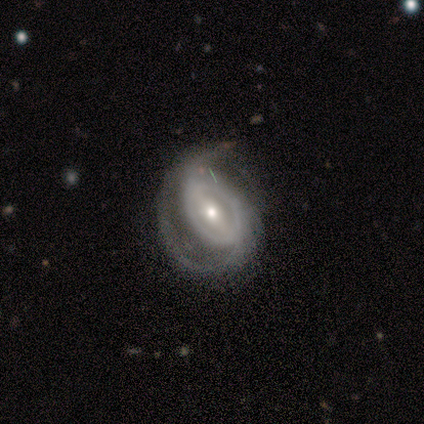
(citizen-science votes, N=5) Smooth or featured: featured or disk — 100%
Edge-on disk: no — 100%
Bar: strong — 40% (tied with weak — 40%)
Spiral arms: yes — 80% (no — 20%)
Spiral winding: loose — 50% (tight — 25%)
Spiral arm count: 2 — 100%
Bulge size: moderate — 60% (small — 40%)
Merging: none — 60% (minor disturbance — 20%)